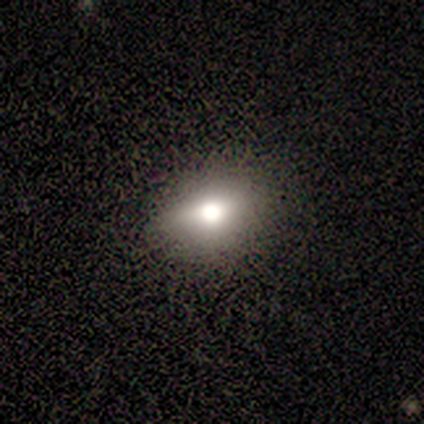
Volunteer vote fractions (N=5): A smooth galaxy with no disk features (60%) that is round (67%). Merging: none (100%).